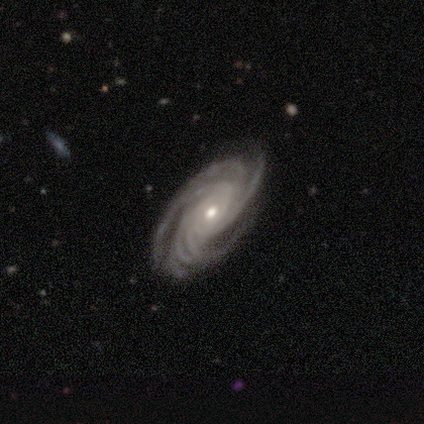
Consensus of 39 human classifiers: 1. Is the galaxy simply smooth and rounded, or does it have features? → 90% featured or disk, 8% star or artifact, 3% smooth.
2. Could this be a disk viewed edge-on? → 100% no, 0% yes.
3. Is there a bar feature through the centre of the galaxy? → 77% no, 14% weak, 9% strong.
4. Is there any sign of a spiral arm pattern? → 100% yes, 0% no.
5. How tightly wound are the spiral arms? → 69% tight, 31% medium, 0% loose.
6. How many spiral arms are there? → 51% more than 4, 20% 4, 14% 3, 14% can't tell, 0% 1, 0% 2.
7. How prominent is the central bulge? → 54% small, 43% moderate, 3% large, 0% dominant, 0% none.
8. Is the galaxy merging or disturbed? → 89% none, 8% minor disturbance, 3% major disturbance, 0% merger.